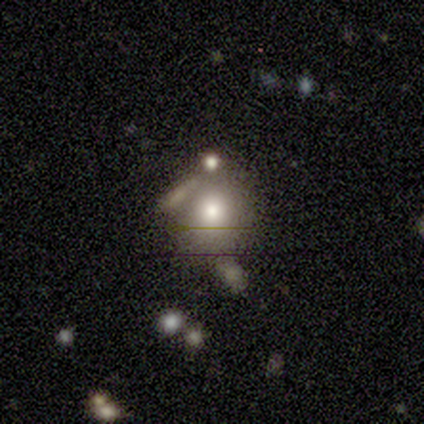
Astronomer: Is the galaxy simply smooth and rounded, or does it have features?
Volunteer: smooth — 40%, tied with star or artifact at 40%.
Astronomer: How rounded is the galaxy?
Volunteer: round — 50%, tied with in between at 50%.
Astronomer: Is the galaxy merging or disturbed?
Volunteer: none — 33%, tied with major disturbance and merger at 33%.